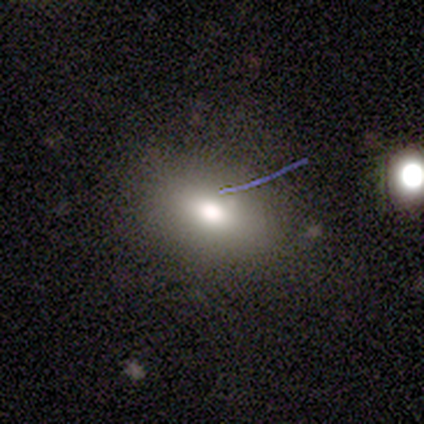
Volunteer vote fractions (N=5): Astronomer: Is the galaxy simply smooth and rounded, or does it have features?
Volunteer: featured or disk — 60% (runner-up: smooth, 40%).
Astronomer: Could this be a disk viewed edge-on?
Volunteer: no — 100%.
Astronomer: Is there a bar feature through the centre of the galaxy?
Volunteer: no — 67%.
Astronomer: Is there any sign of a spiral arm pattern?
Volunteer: no — 100%.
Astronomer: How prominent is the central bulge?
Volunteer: large — 33%, tied with moderate and small at 33%.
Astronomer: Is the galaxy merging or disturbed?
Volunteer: none — 60% (runner-up: minor disturbance, 40%).